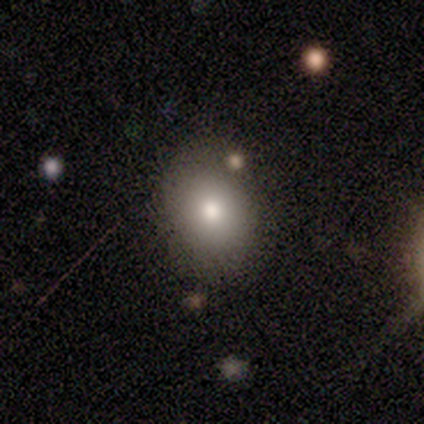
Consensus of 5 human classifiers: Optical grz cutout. It shows a smooth galaxy with no disk features (40%, tied with featured or disk) that is round (50%, tied with in between). Merging: none (75%).